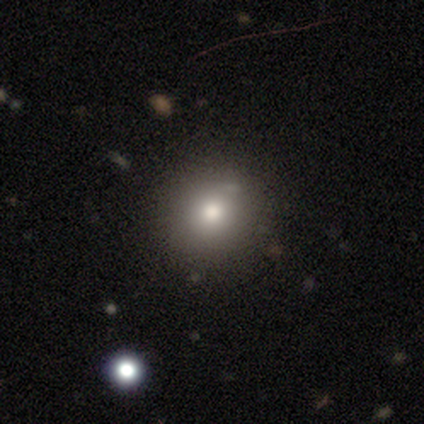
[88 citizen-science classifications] smooth-or-featured: smooth: 76% | featured or disk: 14% | star or artifact: 10%
  how-rounded: round: 91% | in between: 7% | cigar-shaped: 1%
  merging: none: 86% | minor disturbance: 10% | merger: 4% | major disturbance: 0%